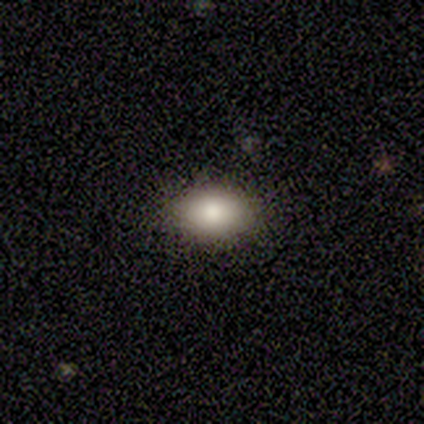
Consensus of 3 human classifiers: smooth_or_featured: smooth (p=1.00)
how_rounded: in between (p=0.67) [alt: round p=0.33]
merging: none (p=1.00)